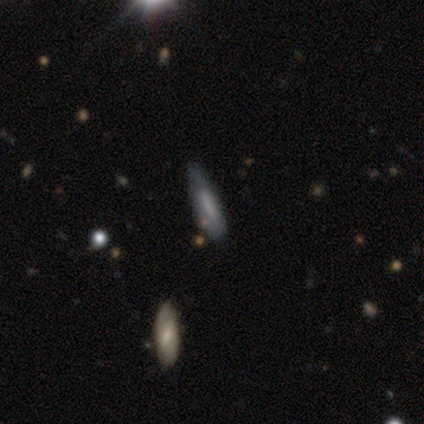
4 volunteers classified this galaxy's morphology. This appears to be a smooth galaxy with no disk features (75%) that is cigar-shaped (67%). Merging: none (75%).